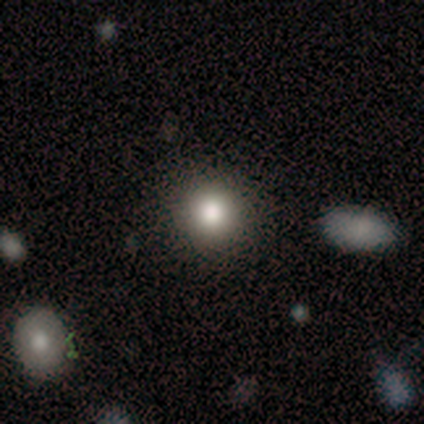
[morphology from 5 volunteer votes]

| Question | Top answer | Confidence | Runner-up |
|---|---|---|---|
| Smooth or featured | smooth | 100% | — |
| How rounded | round | 100% | — |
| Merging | none | 80% | minor disturbance (20%) |